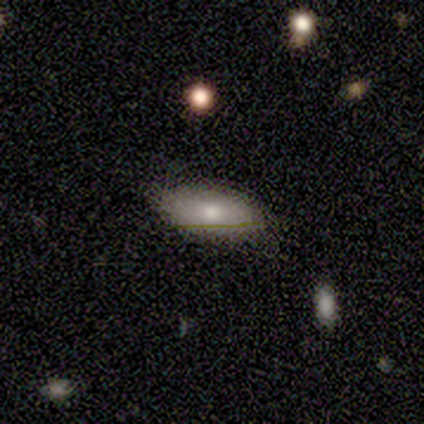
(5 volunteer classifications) This is clearly a smooth galaxy (80%). How rounded: clearly in between (100%). Merging: possibly none (50%, tied with minor disturbance).